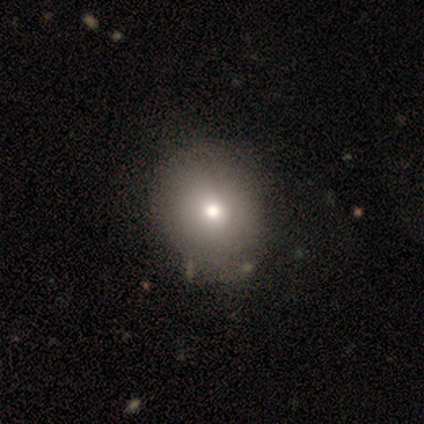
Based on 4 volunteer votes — Smooth or featured?
  - smooth: 75% *
  - star or artifact: 25%
  - featured or disk: 0%
How rounded?
  - round: 67% *
  - in between: 33%
  - cigar-shaped: 0%
Merging?
  - none: 67% *
  - minor disturbance: 33%
  - major disturbance: 0%
  - merger: 0%